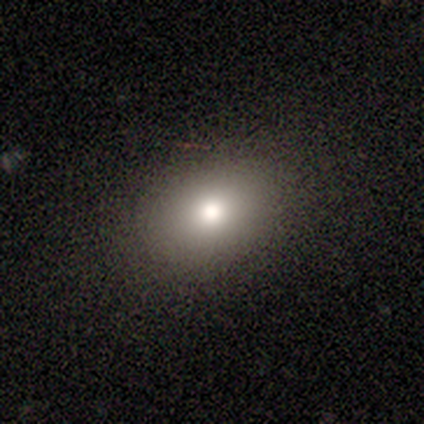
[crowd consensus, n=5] smooth 60%, star or artifact 40%, featured or disk 0%. Down the decision tree: how rounded — in between (67%); merging — none (100%).